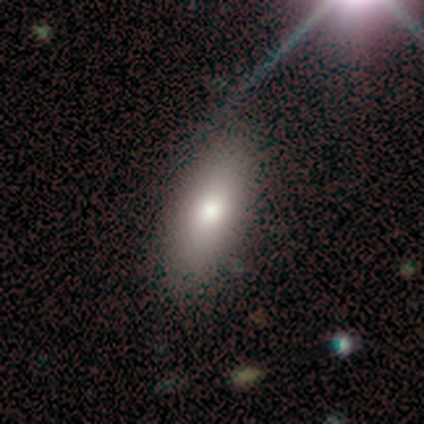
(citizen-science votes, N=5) Smooth or featured? 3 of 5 (60%) said smooth. How rounded? 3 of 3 (100%) said in between. Merging? 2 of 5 (40%) said none.